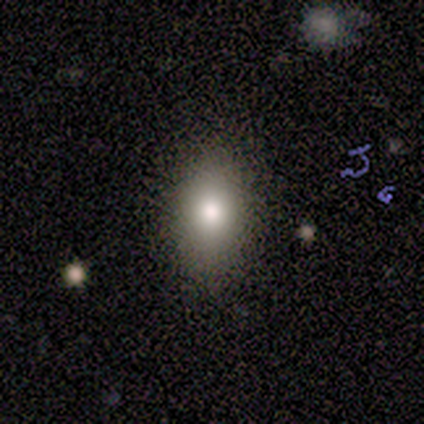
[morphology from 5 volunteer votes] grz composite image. It shows a smooth galaxy with no disk features (80%) that is in between round and cigar-shaped (75%). Merging: none (50%, tied with minor disturbance).